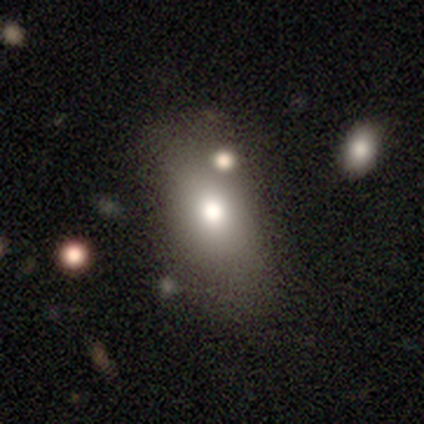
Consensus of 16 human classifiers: This appears to be a smooth galaxy with no disk features (75%) that is in between round and cigar-shaped (75%). Merging: none (79%).